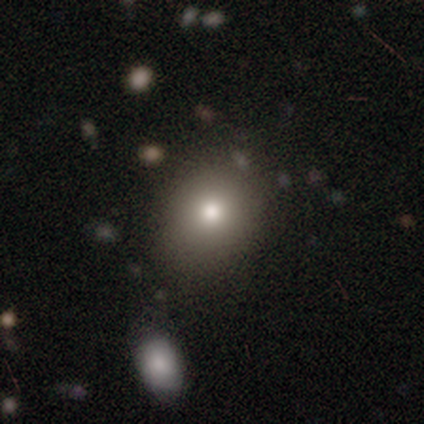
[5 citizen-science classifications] Smooth or featured: smooth — 80% (featured or disk — 20%)
How rounded: round — 100%
Merging: none — 60% (minor disturbance — 20%)